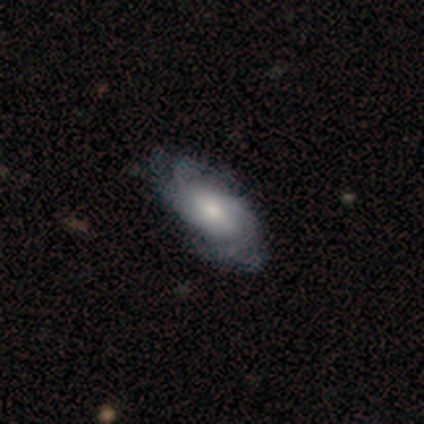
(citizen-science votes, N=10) smooth-or-featured: featured or disk: 70% | smooth: 30% | star or artifact: 0%
  disk-edge-on: no: 100% | yes: 0%
    bar: weak: 71% | strong: 14% | no: 14%
    has-spiral-arms: yes: 100% | no: 0%
      spiral-winding: medium: 57% | tight: 43% | loose: 0%
      spiral-arm-count: can't tell: 43% | 4: 29% | 3: 14% | more than 4: 14% | 1: 0% | 2: 0%
    bulge-size: moderate: 57% | small: 29% | dominant: 14% | large: 0% | none: 0%
  merging: none: 80% | minor disturbance: 10% | major disturbance: 10% | merger: 0%